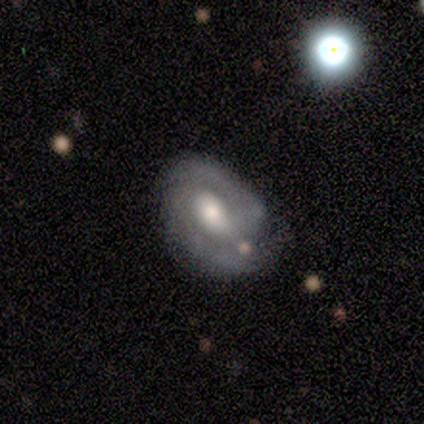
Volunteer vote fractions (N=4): A featured or disk galaxy (75%) with no bar (100%), 2 (67%) tight (33%, tied with medium and loose) spiral arms (100%) and a moderate central bulge (67%).

Vote fractions:
- Smooth or featured? featured or disk: 75% / star or artifact: 25% / smooth: 0%
- Edge-on disk? no: 100% / yes: 0%
- Bar? no: 100% / strong: 0% / weak: 0%
- Spiral arms? yes: 100% / no: 0%
- Spiral winding? tight: 33% (tied) / medium: 33% (tied) / loose: 33% (tied)
- Spiral arm count? 2: 67% / can't tell: 33% / 1: 0% / 3: 0% / 4: 0% / more than 4: 0%
- Bulge size? moderate: 67% / none: 33% / dominant: 0% / large: 0% / small: 0%
- Merging? minor disturbance: 67% / none: 33% / major disturbance: 0% / merger: 0%